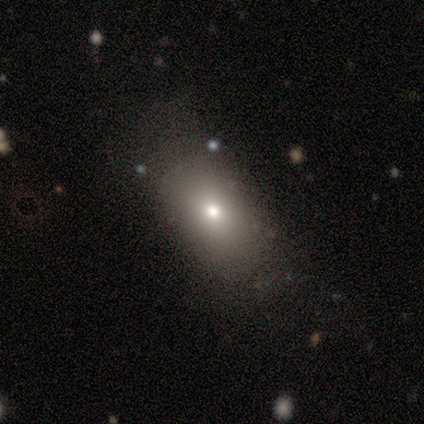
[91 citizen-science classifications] Smooth or featured: smooth — 66% (star or artifact — 19%)
How rounded: in between — 73% (round — 22%)
Merging: none — 72% (minor disturbance — 20%)